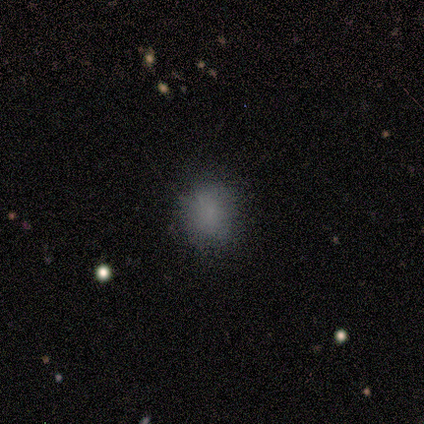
Smooth or featured: smooth — 80% (star or artifact — 20%)
How rounded: round — 75% (in between — 25%)
Merging: none — 75% (minor disturbance — 25%)